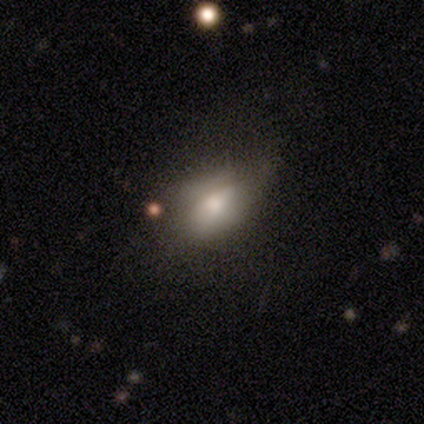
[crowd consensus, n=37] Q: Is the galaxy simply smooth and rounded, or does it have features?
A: smooth — 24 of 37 (65%).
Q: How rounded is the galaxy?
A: in between — 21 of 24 (88%).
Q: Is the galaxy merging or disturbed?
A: none — 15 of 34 (44%).